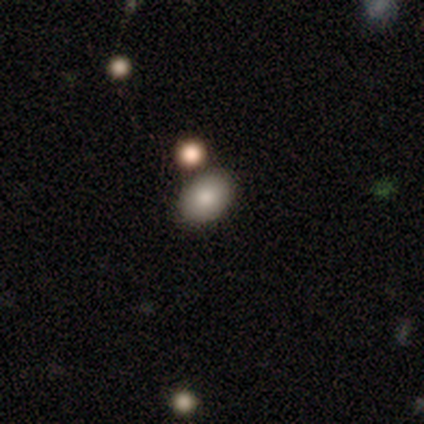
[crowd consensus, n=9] smooth_or_featured: smooth (p=0.67) [alt: featured or disk p=0.33]
how_rounded: in between (p=0.83) [alt: round p=0.17]
merging: none (p=0.78) [alt: minor disturbance p=0.11]